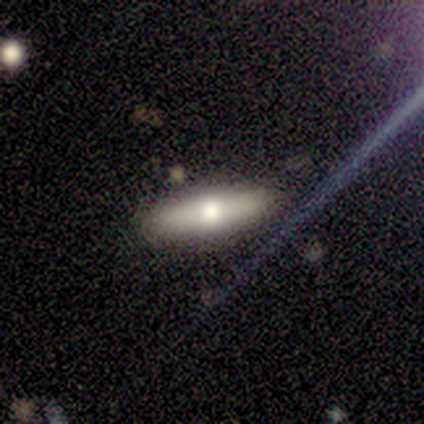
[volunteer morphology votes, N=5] Volunteers were most divided on "smooth or featured" (2-way tie): smooth: 40%, star or artifact: 40%, featured or disk: 20%. More confident: how rounded — cigar-shaped (100%); merging — none (100%).